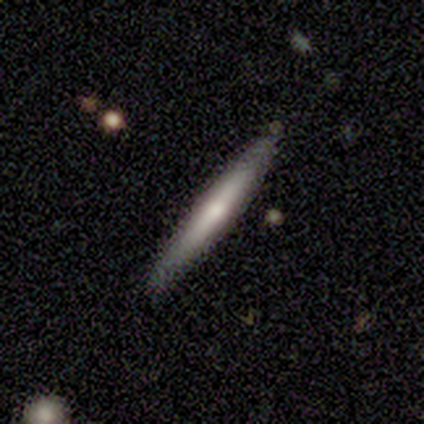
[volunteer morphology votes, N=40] Smooth or featured? smooth (60%)
How rounded? cigar-shaped (92%)
Merging? none (92%)